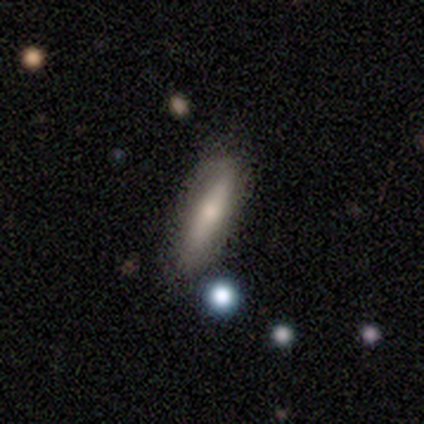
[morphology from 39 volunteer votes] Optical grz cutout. It shows a smooth galaxy with no disk features (49%) that is cigar-shaped (68%). Merging: none (63%).